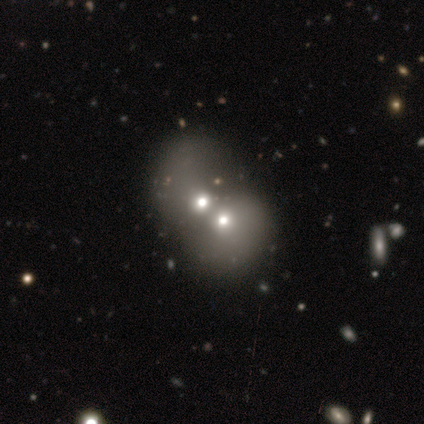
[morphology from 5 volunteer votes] smooth 40% (tied), featured or disk 40% (tied), star or artifact 20%. Down the decision tree: how rounded — round (100%); merging — merger (100%).